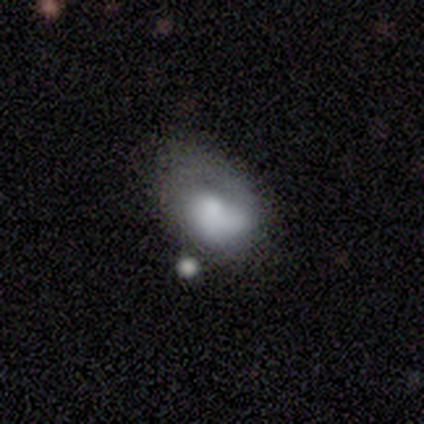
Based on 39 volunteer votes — smooth_or_featured: smooth (p=0.56) [alt: featured or disk p=0.41]
how_rounded: in between (p=0.77) [alt: round p=0.23]
merging: none (p=0.39) [alt: minor disturbance p=0.32]